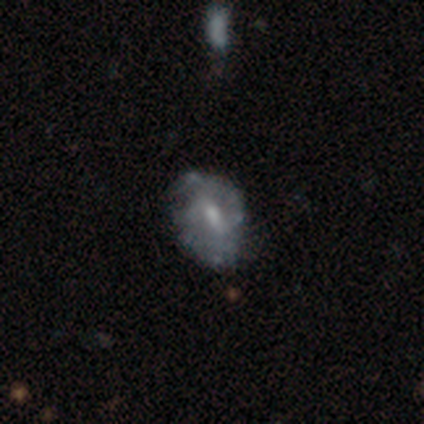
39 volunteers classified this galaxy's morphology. Smooth or featured?
  - featured or disk: 72% *
  - smooth: 26%
  - star or artifact: 3%
Edge-on disk?
  - no: 96% *
  - yes: 4%
Bar?
  - weak: 59% *
  - no: 33%
  - strong: 7%
Spiral arms?
  - yes: 52% *
  - no: 48%
Spiral winding?
  - tight: 64% *
  - medium: 36%
  - loose: 0%
Spiral arm count?
  - 2: 71% *
  - can't tell: 21%
  - 3: 7%
  - 1: 0%
  - 4: 0%
  - more than 4: 0%
Bulge size?
  - small: 41% *
  - moderate: 33%
  - none: 19%
  - large: 7%
  - dominant: 0%
Merging?
  - none: 58% *
  - minor disturbance: 21%
  - major disturbance: 18%
  - merger: 3%